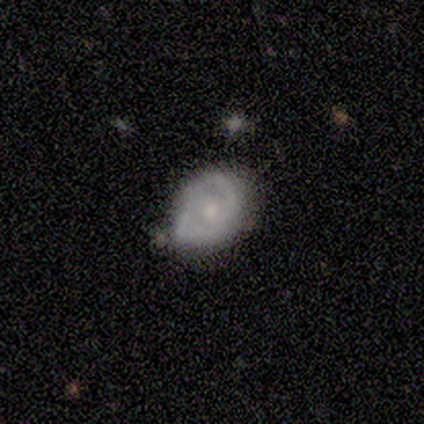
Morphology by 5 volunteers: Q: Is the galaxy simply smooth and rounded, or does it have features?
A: featured or disk — 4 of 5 (80%).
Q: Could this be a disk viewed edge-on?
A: no — 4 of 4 (100%).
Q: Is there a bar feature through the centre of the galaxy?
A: no — 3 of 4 (75%).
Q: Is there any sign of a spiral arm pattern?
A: yes — 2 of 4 (50%, tied with no).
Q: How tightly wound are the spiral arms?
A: medium — 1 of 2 (50%, tied with loose).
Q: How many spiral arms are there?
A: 2 — 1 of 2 (50%, tied with can't tell).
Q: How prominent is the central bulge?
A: small — 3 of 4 (75%).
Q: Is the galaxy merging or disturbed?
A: none — 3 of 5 (60%).